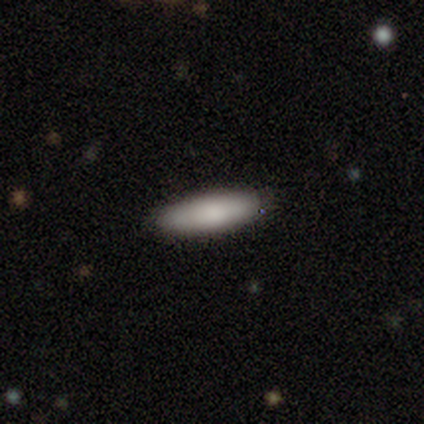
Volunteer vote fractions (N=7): Q: Smooth or featured?
A: smooth (86%); runner-up: star or artifact (14%)
Q: How rounded?
A: cigar-shaped (83%); runner-up: in between (17%)
Q: Merging?
A: none (100%)